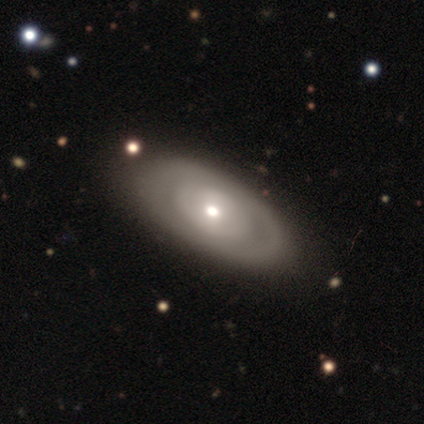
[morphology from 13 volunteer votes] smooth-or-featured: featured or disk: 54% | smooth: 46% | star or artifact: 0%
  disk-edge-on: no: 100% | yes: 0%
    bar: no: 71% | weak: 29% | strong: 0%
    has-spiral-arms: yes: 57% | no: 43%
      spiral-winding: tight: 50% (tied) | medium: 50% (tied) | loose: 0%
      spiral-arm-count: can't tell: 75% | 3: 25% | 1: 0% | 2: 0% | 4: 0% | more than 4: 0%
    bulge-size: moderate: 57% | small: 43% | dominant: 0% | large: 0% | none: 0%
  merging: none: 46% | minor disturbance: 15% | major disturbance: 8% | merger: 0%